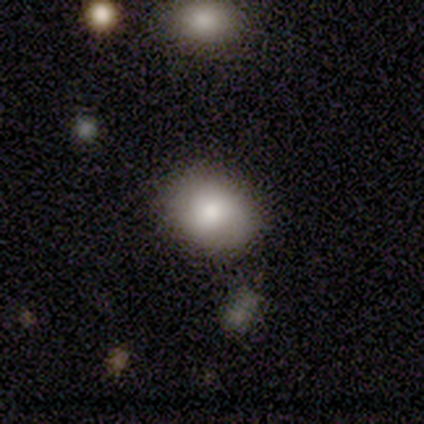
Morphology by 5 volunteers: Smooth or featured: smooth — 100%
How rounded: in between — 80% (round — 20%)
Merging: none — 60% (minor disturbance — 40%)